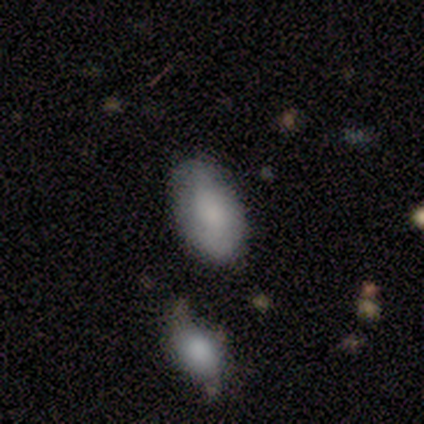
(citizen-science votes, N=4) Q: Smooth or featured?
A: smooth (75%); runner-up: featured or disk (25%)
Q: How rounded?
A: in between (100%)
Q: Merging?
A: none (75%); runner-up: minor disturbance (25%)